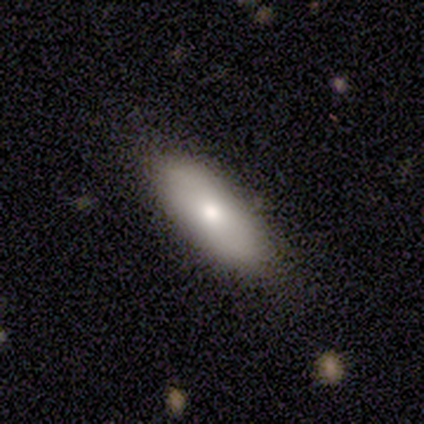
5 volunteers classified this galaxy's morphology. A featured or disk galaxy (60%) with no bar (100%), no spiral arms (100%) and a moderate central bulge (100%). Merging: none (80%).